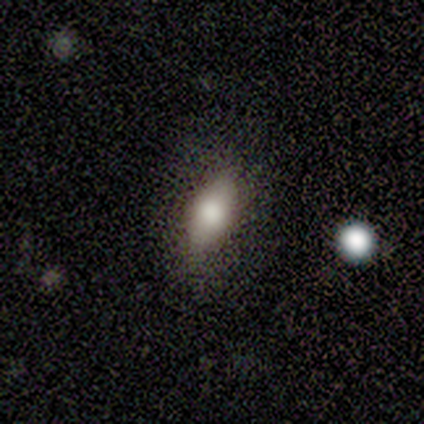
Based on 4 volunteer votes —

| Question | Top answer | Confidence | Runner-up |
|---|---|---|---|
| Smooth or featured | smooth | 100% | — |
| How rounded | in between | 75% | cigar-shaped (25%) |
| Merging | none | 100% | — |